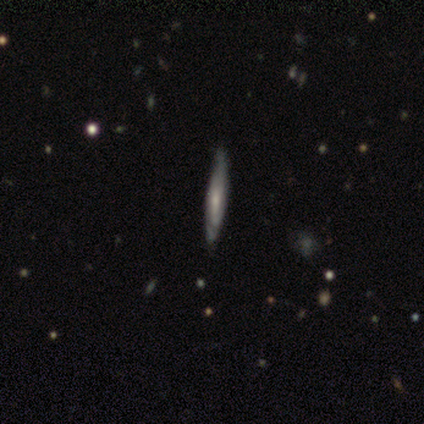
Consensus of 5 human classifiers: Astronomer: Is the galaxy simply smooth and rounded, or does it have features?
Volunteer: featured or disk — 80%.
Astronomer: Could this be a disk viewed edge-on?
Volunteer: yes — 75%.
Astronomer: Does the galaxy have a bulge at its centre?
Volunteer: rounded — 67%.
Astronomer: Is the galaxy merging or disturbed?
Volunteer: none — 100%.